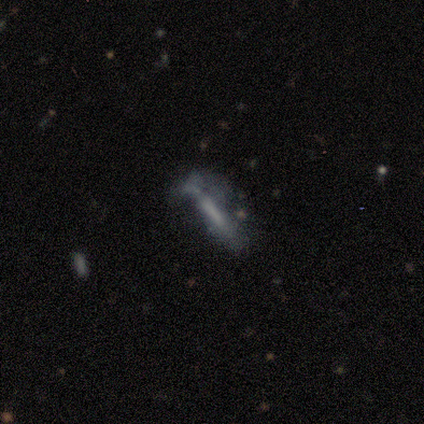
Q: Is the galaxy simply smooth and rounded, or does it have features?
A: featured or disk — 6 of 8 (75%).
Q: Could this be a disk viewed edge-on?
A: yes — 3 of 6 (50%, tied with no).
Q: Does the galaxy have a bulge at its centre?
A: none — 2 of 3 (67%).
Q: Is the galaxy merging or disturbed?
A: none — 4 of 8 (50%).